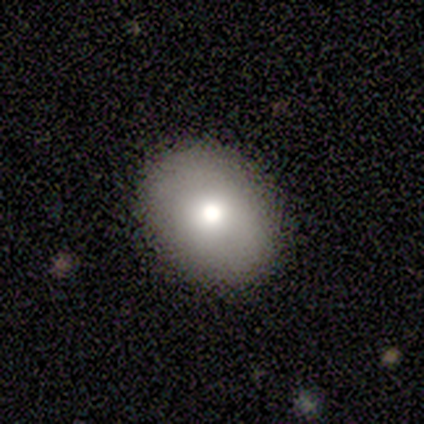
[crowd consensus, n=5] Overall: smooth (80%). How rounded: round (75%). Merging: none (100%).